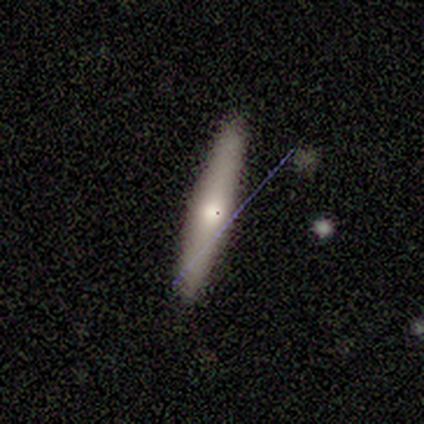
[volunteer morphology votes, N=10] This appears to be a smooth galaxy with no disk features (60%) that is cigar-shaped (83%). Merging: none (75%).